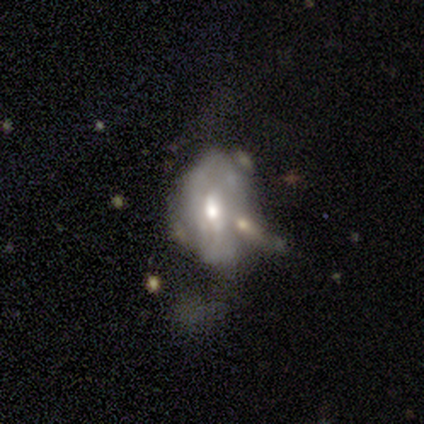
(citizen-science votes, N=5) A featured or disk galaxy (60%) with no bar (67%), no spiral arms (67%) and a moderate central bulge (67%).

Vote fractions:
- Smooth or featured? featured or disk: 60% / star or artifact: 40% / smooth: 0%
- Edge-on disk? no: 100% / yes: 0%
- Bar? no: 67% / weak: 33% / strong: 0%
- Spiral arms? no: 67% / yes: 33%
- Bulge size? moderate: 67% / large: 33% / dominant: 0% / small: 0% / none: 0%
- Merging? none: 33% (tied) / minor disturbance: 33% (tied) / major disturbance: 33% (tied) / merger: 0%